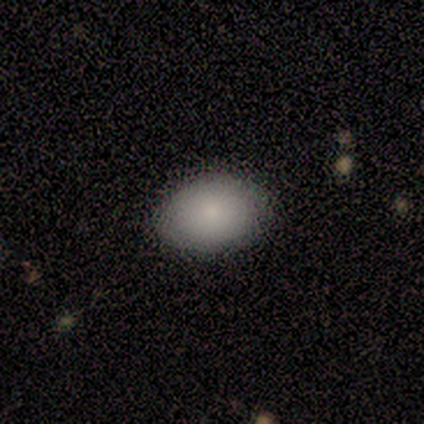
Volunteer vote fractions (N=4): Overall: smooth (50%, tied with featured or disk). How rounded: in between (100%). Merging: none (100%).